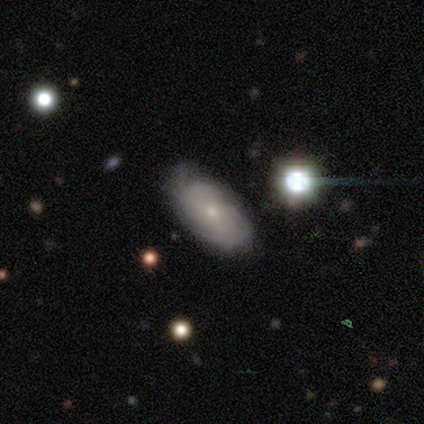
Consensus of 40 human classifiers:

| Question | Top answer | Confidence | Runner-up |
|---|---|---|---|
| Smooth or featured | featured or disk | 72% | smooth (20%) |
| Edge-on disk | no | 97% | yes (3%) |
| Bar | no | 79% | weak (21%) |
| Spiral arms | yes | 82% | no (18%) |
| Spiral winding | tight | 65% | medium (30%) |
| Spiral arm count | can't tell | 70% | 2 (9%) |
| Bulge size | small | 79% | moderate (18%) |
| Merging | none | 78% | minor disturbance (16%) |